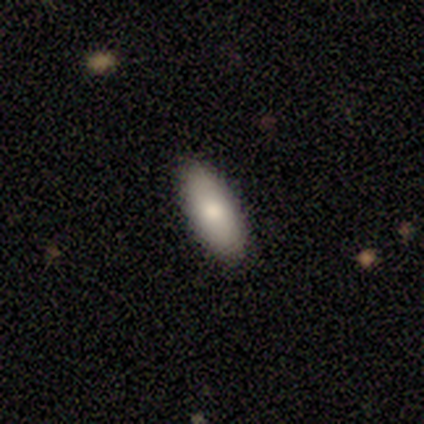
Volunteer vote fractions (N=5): This appears to be a smooth galaxy with no disk features (80%) that is in between round and cigar-shaped (100%). Merging: none (100%).